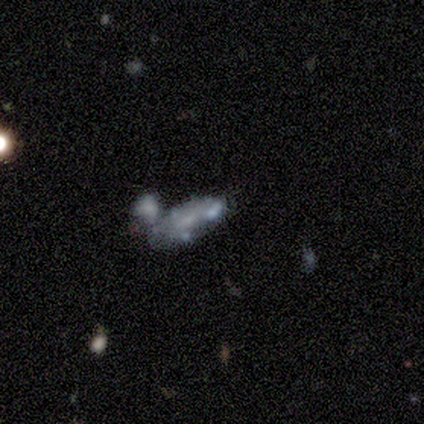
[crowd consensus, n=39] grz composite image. It shows a featured or disk galaxy (59%) with no bar (73%), no spiral arms (86%) and a small central bulge (45%). Merging: merger (58%).